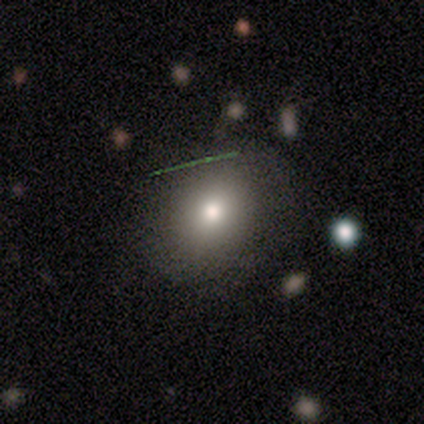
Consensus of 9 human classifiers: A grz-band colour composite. It shows a smooth galaxy with no disk features (67%) that is round (67%). Merging: none (75%).